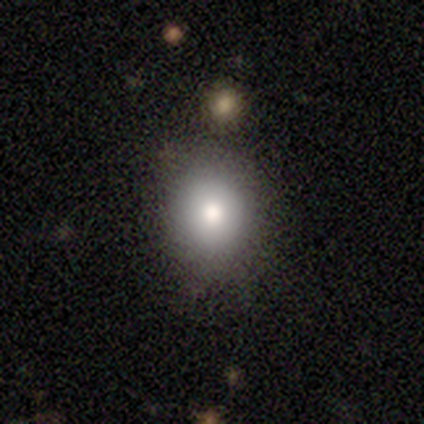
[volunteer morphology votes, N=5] Smooth or featured?
  - smooth: 100% *
  - featured or disk: 0%
  - star or artifact: 0%
How rounded?
  - round: 60% *
  - in between: 20%
  - cigar-shaped: 20%
Merging?
  - none: 80% *
  - minor disturbance: 20%
  - major disturbance: 0%
  - merger: 0%